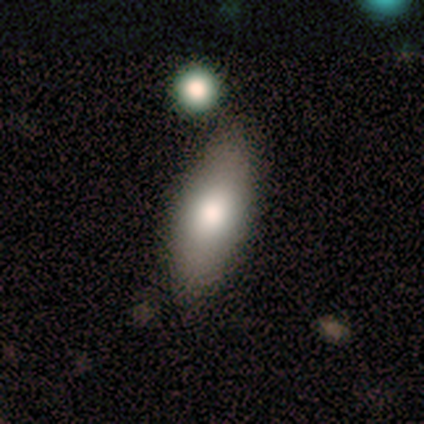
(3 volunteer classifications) Volunteers were most divided on "merging" (3-way tie): none: 33%, minor disturbance: 33%, major disturbance: 33%, merger: 0%. More confident: smooth or featured — smooth (100%); how rounded — in between (67%).